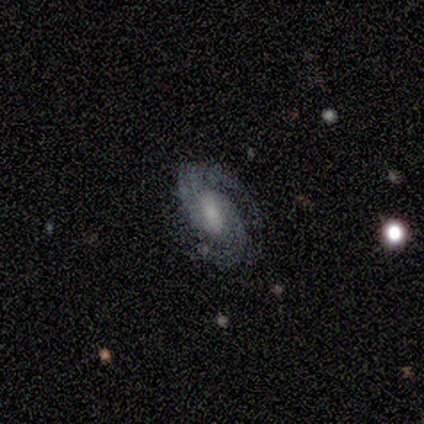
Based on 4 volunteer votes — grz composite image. It shows a featured or disk galaxy (100%) with no bar (100%), 2 (75%) medium (50%) spiral arms (100%) and no central bulge (50%). Merging: none (100%).